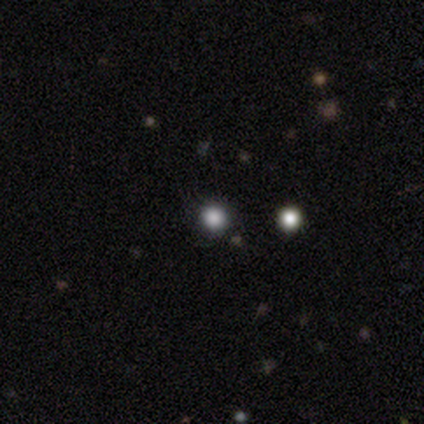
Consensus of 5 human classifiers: smooth 80%, star or artifact 20%, featured or disk 0%. Down the decision tree: how rounded — round (100%); merging — minor disturbance (75%).